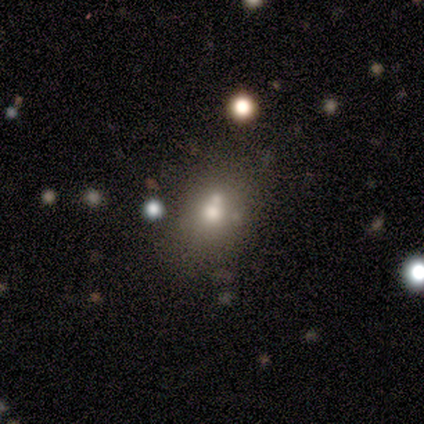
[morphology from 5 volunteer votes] smooth-or-featured: smooth: 40% (tied) | star or artifact: 40% (tied) | featured or disk: 20%
  how-rounded: round: 100% | in between: 0% | cigar-shaped: 0%
  merging: none: 100% | minor disturbance: 0% | major disturbance: 0% | merger: 0%